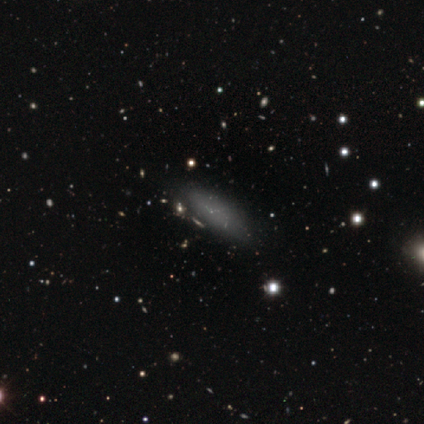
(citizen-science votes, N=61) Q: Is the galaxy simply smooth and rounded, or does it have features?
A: smooth — 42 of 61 (69%).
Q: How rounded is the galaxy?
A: in between — 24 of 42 (57%).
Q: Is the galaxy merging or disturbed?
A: none — 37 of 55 (67%).